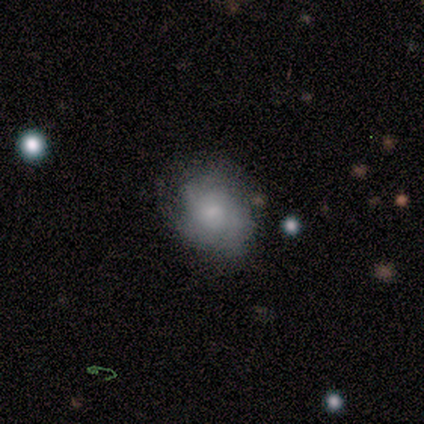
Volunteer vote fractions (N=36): A smooth galaxy with no disk features (61%) that is in between round and cigar-shaped (55%).

Vote fractions:
- Smooth or featured? smooth: 61% / featured or disk: 31% / star or artifact: 8%
- How rounded? in between: 55% / round: 41% / cigar-shaped: 5%
- Merging? none: 48% / minor disturbance: 36% / major disturbance: 15% / merger: 0%